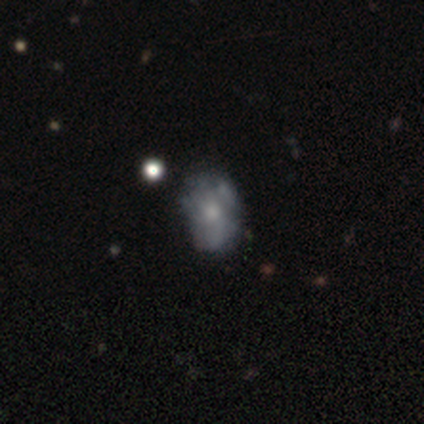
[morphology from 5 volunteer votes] Q: Smooth or featured?
A: featured or disk (80%); runner-up: smooth (20%)
Q: Edge-on disk?
A: no (100%)
Q: Bar?
A: no (100%)
Q: Spiral arms?
A: no (75%); runner-up: yes (25%)
Q: Bulge size?
A: small (75%); runner-up: moderate (25%)
Q: Merging?
A: none (60%); runner-up: minor disturbance (20%)